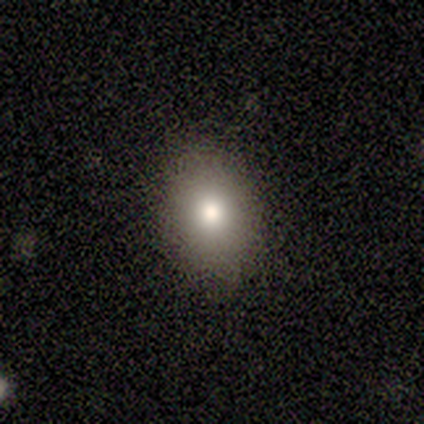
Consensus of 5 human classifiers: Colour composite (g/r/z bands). It shows a smooth galaxy with no disk features (80%) that is round (50%, tied with in between). Merging: none (100%).